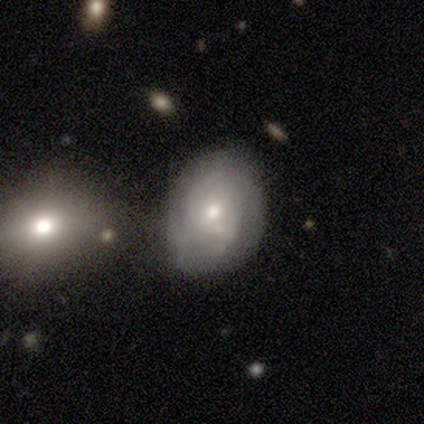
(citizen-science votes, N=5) Smooth or featured? 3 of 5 (60%) said smooth. How rounded? 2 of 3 (67%) said in between. Merging? 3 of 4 (75%) said none.